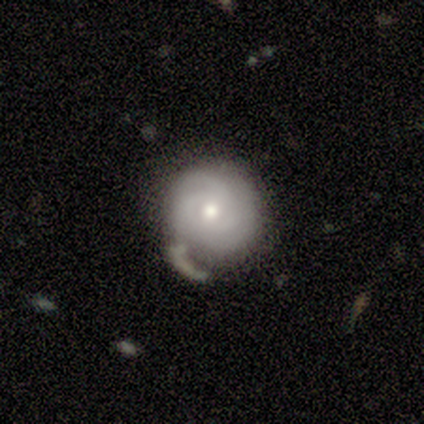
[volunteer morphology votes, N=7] Smooth or featured: featured or disk — 57% (smooth — 43%)
Edge-on disk: no — 100%
Bar: no — 75% (weak — 25%)
Spiral arms: yes — 75% (no — 25%)
Spiral winding: tight — 67% (medium — 33%)
Spiral arm count: 2 — 67% (3 — 33%)
Bulge size: moderate — 75% (small — 25%)
Merging: none — 71% (minor disturbance — 14%)